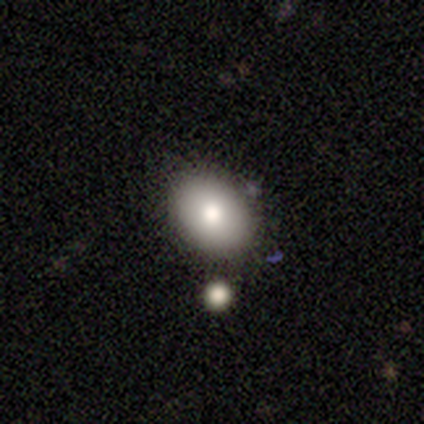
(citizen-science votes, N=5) A smooth galaxy with no disk features (60%) that is in between round and cigar-shaped (67%). Merging: none (100%).